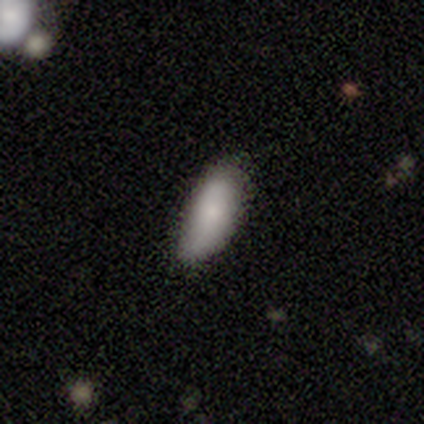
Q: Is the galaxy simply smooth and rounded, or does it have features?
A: smooth — 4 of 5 (80%).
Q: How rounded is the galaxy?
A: in between — 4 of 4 (100%).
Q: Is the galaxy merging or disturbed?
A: none — 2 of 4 (50%, tied with minor disturbance).